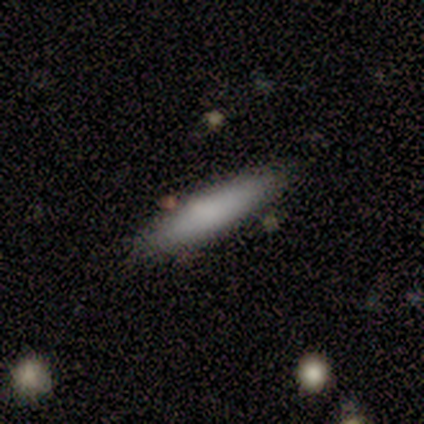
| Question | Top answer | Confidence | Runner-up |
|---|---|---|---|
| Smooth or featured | smooth | 40% | tied: featured or disk (40%) |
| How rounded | in between | 50% | tied: cigar-shaped (50%) |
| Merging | none | 100% | — |